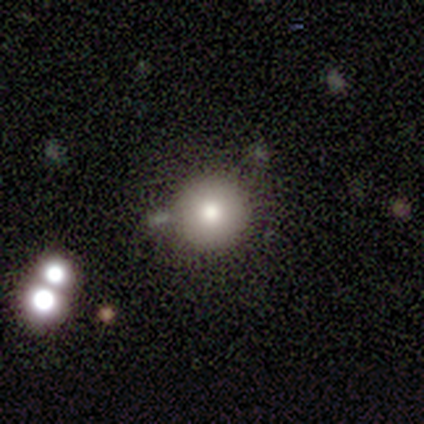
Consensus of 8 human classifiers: Q: Smooth or featured?
A: smooth (62%); runner-up: star or artifact (38%)
Q: How rounded?
A: round (100%)
Q: Merging?
A: none (80%); runner-up: merger (20%)